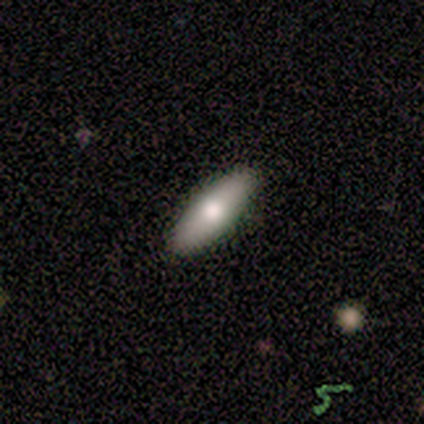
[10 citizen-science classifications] Smooth or featured: smooth — 50% (featured or disk — 40%)
How rounded: cigar-shaped — 60% (in between — 40%)
Merging: none — 78% (minor disturbance — 11%)